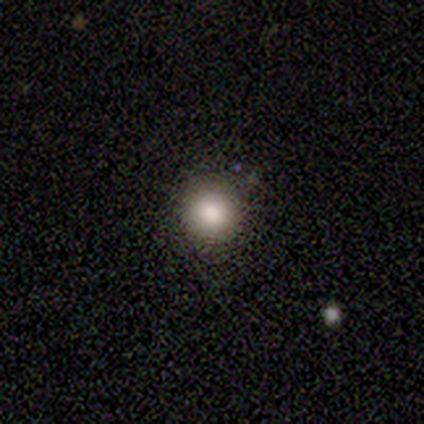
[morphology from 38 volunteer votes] Smooth or featured?
  - smooth: 76% *
  - star or artifact: 18%
  - featured or disk: 5%
How rounded?
  - round: 90% *
  - cigar-shaped: 7%
  - in between: 3%
Merging?
  - none: 90% *
  - minor disturbance: 10%
  - major disturbance: 0%
  - merger: 0%